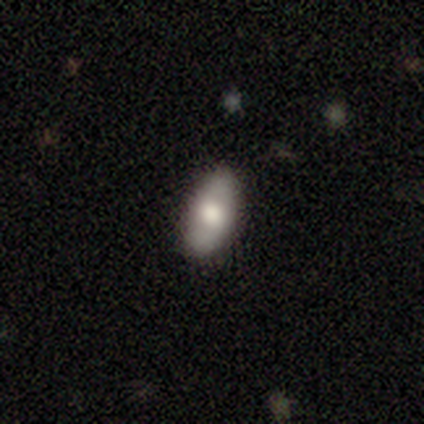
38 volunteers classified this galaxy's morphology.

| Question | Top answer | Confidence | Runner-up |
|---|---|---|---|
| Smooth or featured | smooth | 63% | featured or disk (32%) |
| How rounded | in between | 96% | round (4%) |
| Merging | none | 86% | minor disturbance (11%) |